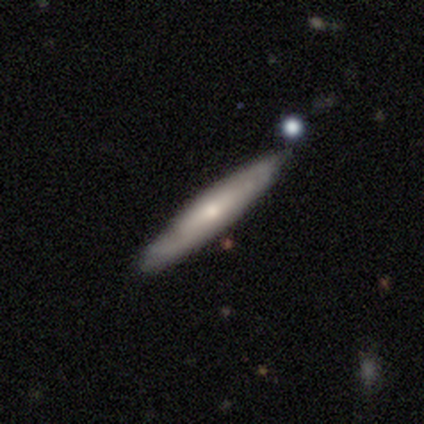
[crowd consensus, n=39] featured or disk 51%, smooth 44%, star or artifact 5%. Down the decision tree: edge-on disk — yes (80%); edge-on bulge — rounded (56%); merging — none (95%).